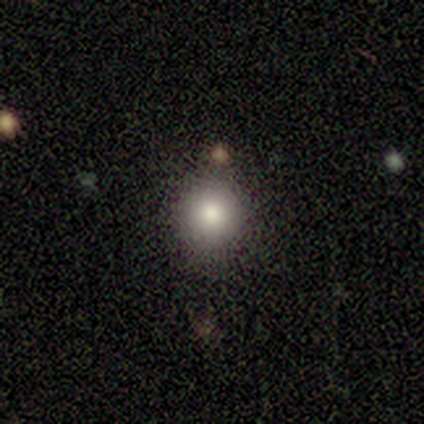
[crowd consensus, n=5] This is clearly a smooth galaxy (100%). How rounded: clearly round (80%). Merging: likely none (60%).